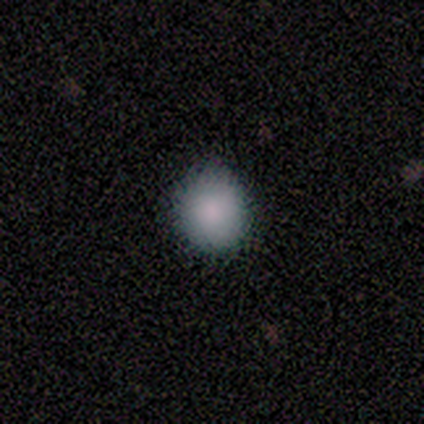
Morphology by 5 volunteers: Smooth or featured? 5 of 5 (100%) said smooth. How rounded? 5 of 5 (100%) said round. Merging? 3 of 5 (60%) said none.